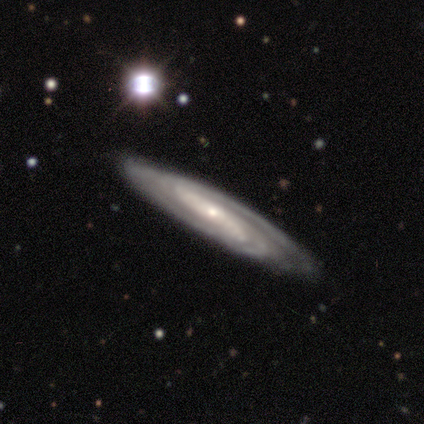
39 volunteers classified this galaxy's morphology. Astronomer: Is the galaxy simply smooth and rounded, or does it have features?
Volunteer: featured or disk — 90%.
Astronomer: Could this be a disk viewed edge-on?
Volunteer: no — 77%.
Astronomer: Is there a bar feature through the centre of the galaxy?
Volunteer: strong — 48% (runner-up: weak, 26%).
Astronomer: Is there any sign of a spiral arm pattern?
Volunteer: yes — 100%.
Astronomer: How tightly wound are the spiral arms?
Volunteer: tight — 44% (runner-up: medium, 33%).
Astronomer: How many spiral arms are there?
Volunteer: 2 — 41% (runner-up: can't tell, 37%).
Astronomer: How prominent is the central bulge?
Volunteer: small — 70%.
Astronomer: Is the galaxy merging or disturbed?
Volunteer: none — 82%.